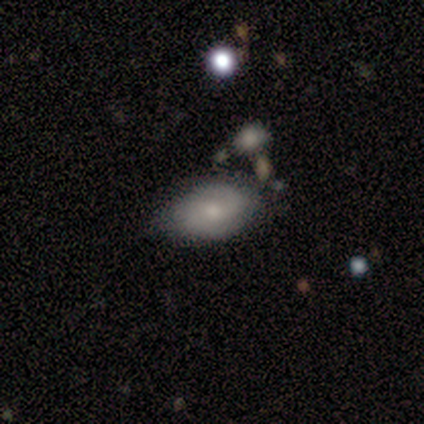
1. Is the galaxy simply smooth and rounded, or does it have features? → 50% smooth (tied), 50% star or artifact (tied), 0% featured or disk.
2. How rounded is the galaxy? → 100% in between, 0% round, 0% cigar-shaped.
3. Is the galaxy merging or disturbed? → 100% none, 0% minor disturbance, 0% major disturbance, 0% merger.